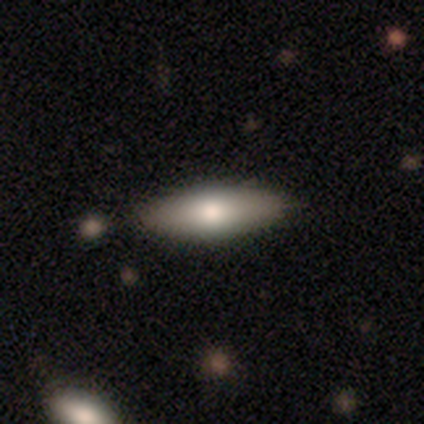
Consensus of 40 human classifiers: smooth 78%, featured or disk 15%, star or artifact 8%. Down the decision tree: how rounded — in between (58%); merging — none (81%).